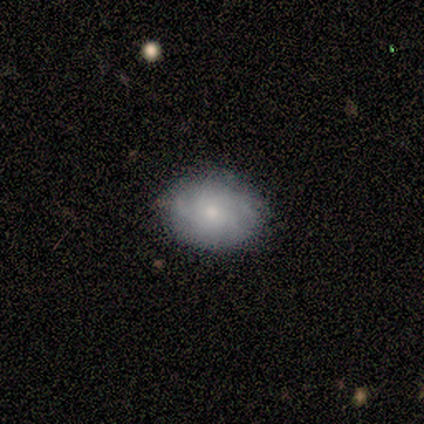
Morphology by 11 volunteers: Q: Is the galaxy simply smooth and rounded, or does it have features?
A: featured or disk — 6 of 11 (55%).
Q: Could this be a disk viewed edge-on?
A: no — 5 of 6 (83%).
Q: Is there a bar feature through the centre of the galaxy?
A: no — 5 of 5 (100%).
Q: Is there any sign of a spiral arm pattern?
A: yes — 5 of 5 (100%).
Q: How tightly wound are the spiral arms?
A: tight — 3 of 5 (60%).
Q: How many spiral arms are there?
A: can't tell — 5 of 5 (100%).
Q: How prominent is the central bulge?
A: small — 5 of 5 (100%).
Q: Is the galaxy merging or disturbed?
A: none — 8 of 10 (80%).